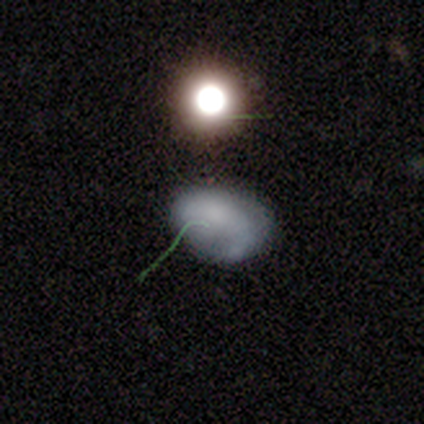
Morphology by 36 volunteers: Smooth or featured: smooth — 58% (featured or disk — 25%)
How rounded: in between — 67% (round — 29%)
Merging: none — 53% (minor disturbance — 40%)